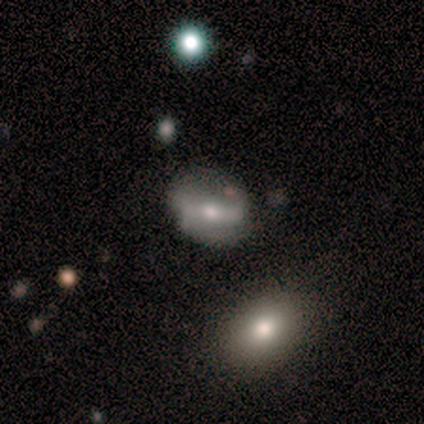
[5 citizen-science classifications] Morphology: type=smooth (80%); roundness=in between (75%); merging=none (60%).